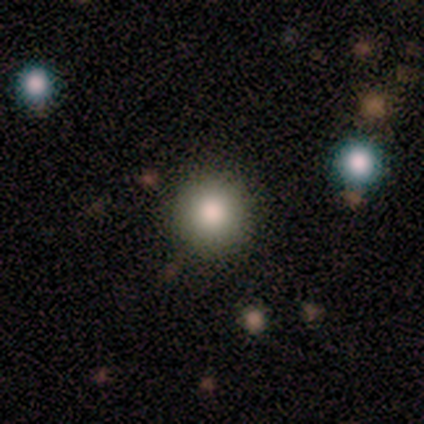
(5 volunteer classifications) This appears to be a smooth galaxy with no disk features (80%) that is round (100%). Merging: none (100%).